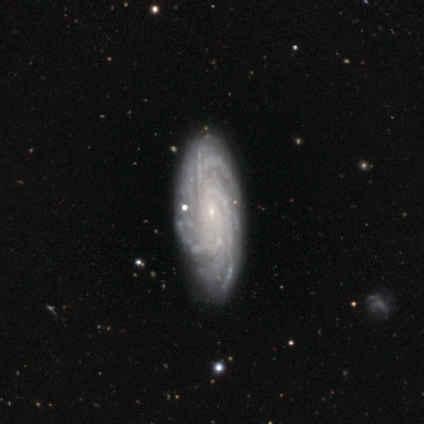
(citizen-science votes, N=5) Q: Smooth or featured?
A: featured or disk (100%)
Q: Edge-on disk?
A: no (100%)
Q: Bar?
A: no (100%)
Q: Spiral arms?
A: yes (100%)
Q: Spiral winding?
A: tight (100%)
Q: Spiral arm count?
A: more than 4 (60%); runner-up: 4 (40%)
Q: Bulge size?
A: small (100%)
Q: Merging?
A: none (60%); runner-up: minor disturbance (20%)